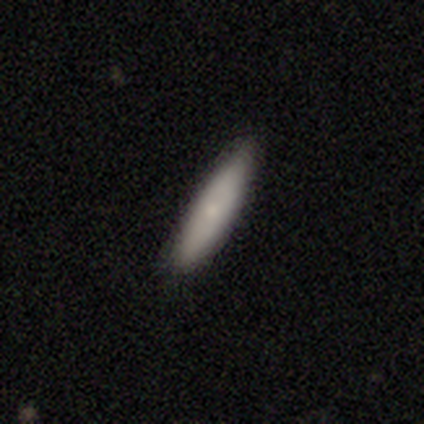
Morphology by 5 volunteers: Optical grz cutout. It shows a smooth galaxy with no disk features (80%) that is cigar-shaped (100%). Merging: none (80%).